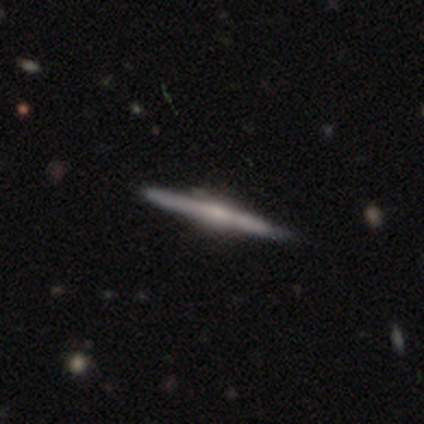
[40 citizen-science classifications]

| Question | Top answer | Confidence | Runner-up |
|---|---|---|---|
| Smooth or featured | featured or disk | 68% | smooth (28%) |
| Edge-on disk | yes | 96% | no (4%) |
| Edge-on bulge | rounded | 50% | boxy (27%) |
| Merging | none | 82% | minor disturbance (13%) |